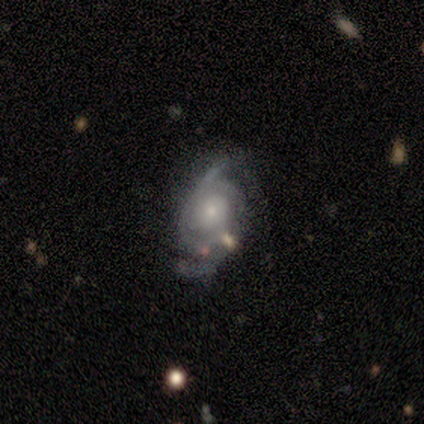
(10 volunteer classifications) This is clearly a featured or disk galaxy (90%). It is clearly not viewed edge-on (100%). Bar: likely no (67%). Spiral arm pattern: clearly yes (100%). Spiral arm count: likely 2 (67%). Spiral winding: possibly medium (56%). Central bulge: likely small (67%). Merging: possibly none (50%).